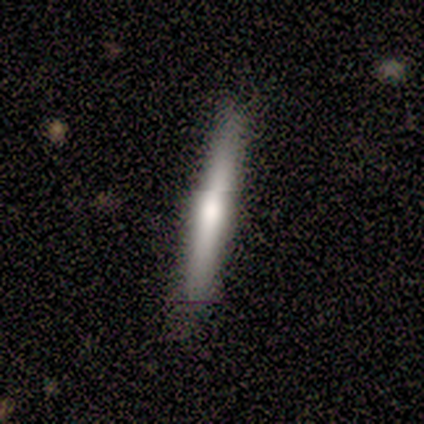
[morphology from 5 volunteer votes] featured or disk 80%, smooth 20%, star or artifact 0%. Down the decision tree: edge-on disk — yes (100%); edge-on bulge — boxy (50%); merging — none (100%).